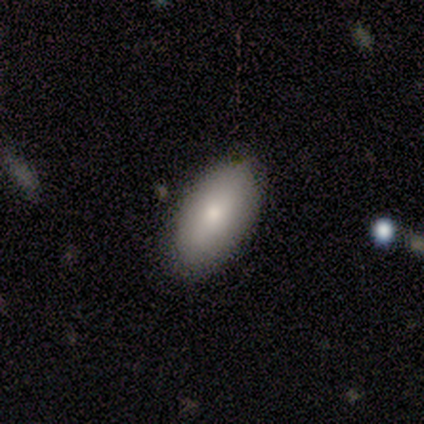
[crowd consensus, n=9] Overall: smooth (89%). How rounded: in between (100%). Merging: none (67%; minor disturbance 33%).